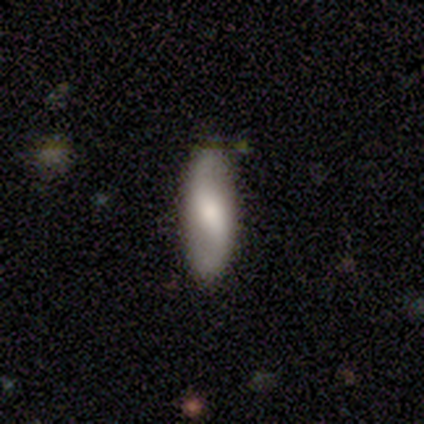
Smooth or featured: smooth — 80% (featured or disk — 20%)
How rounded: in between — 50% (tied with cigar-shaped — 50%)
Merging: none — 60% (minor disturbance — 40%)